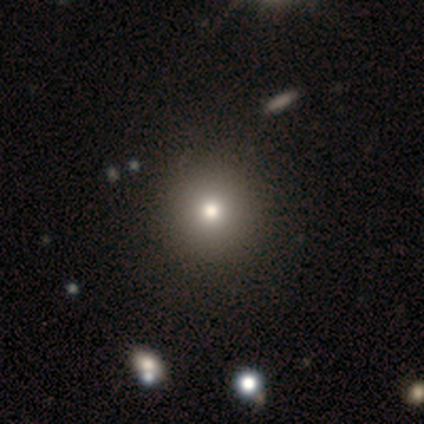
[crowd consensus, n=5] Smooth or featured?
  - smooth: 40% * (tied)
  - star or artifact: 40% * (tied)
  - featured or disk: 20%
How rounded?
  - round: 100% *
  - in between: 0%
  - cigar-shaped: 0%
Merging?
  - none: 67% *
  - minor disturbance: 33%
  - major disturbance: 0%
  - merger: 0%